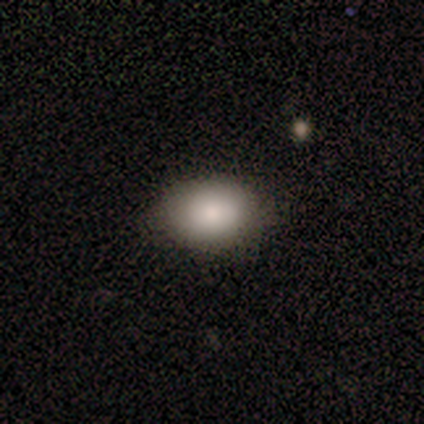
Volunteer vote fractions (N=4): This appears to be a smooth galaxy with no disk features (75%) that is in between round and cigar-shaped (100%). Merging: none (75%).